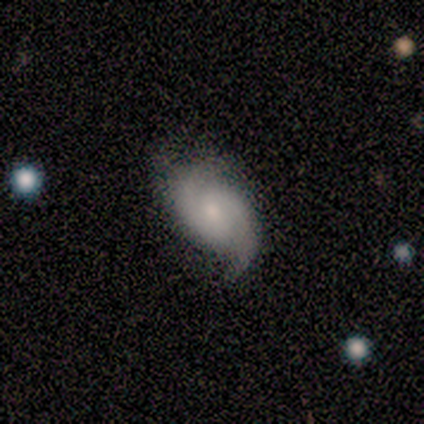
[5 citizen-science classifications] Q: Smooth or featured?
A: featured or disk (60%); runner-up: smooth (40%)
Q: Edge-on disk?
A: no (100%)
Q: Bar?
A: no (67%); runner-up: weak (33%)
Q: Spiral arms?
A: yes (100%)
Q: Spiral winding?
A: medium (100%)
Q: Spiral arm count?
A: 2 (100%)
Q: Bulge size?
A: small (67%); runner-up: moderate (33%)
Q: Merging?
A: none (80%); runner-up: minor disturbance (20%)